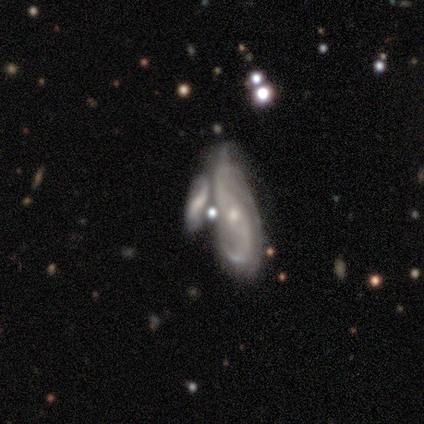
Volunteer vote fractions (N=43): Q: Smooth or featured?
A: featured or disk (84%); runner-up: smooth (9%)
Q: Edge-on disk?
A: no (97%); runner-up: yes (3%)
Q: Bar?
A: no (54%); runner-up: strong (26%)
Q: Spiral arms?
A: yes (97%); runner-up: no (3%)
Q: Spiral winding?
A: loose (56%); runner-up: medium (32%)
Q: Spiral arm count?
A: 2 (88%); runner-up: can't tell (6%)
Q: Bulge size?
A: small (69%); runner-up: moderate (31%)
Q: Merging?
A: merger (72%); runner-up: none (15%)